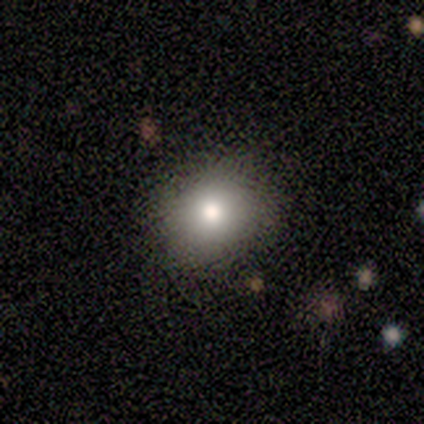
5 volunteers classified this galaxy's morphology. Smooth or featured? smooth (60%)
How rounded? round (100%)
Merging? none (60%)